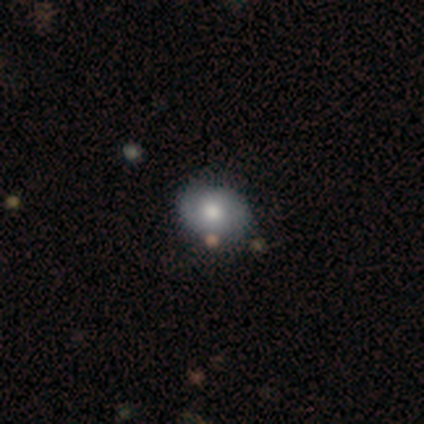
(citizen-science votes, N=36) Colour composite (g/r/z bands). It shows a smooth galaxy with no disk features (58%) that is round (71%). Merging: none (76%).